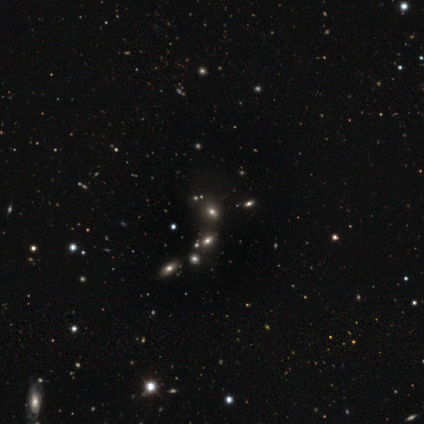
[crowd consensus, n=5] This is likely a star or artifact rather than a galaxy (60%).